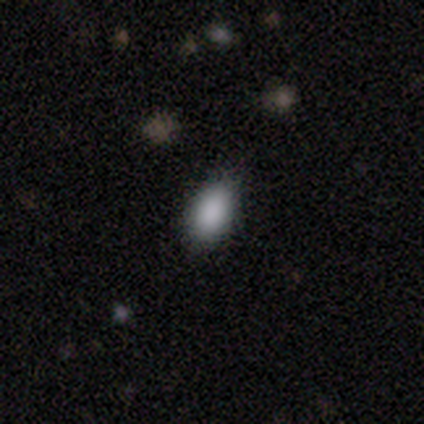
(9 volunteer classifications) This is clearly a smooth galaxy (89%). How rounded: clearly in between (88%). Merging: clearly none (100%).